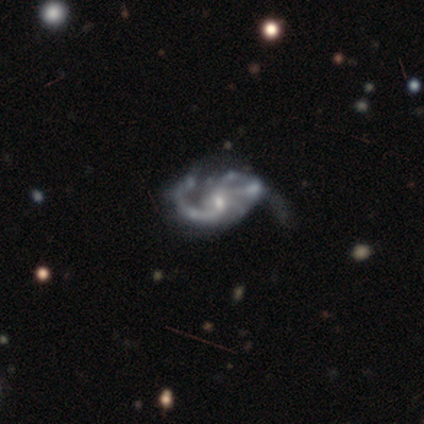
smooth-or-featured: featured or disk: 100% | smooth: 0% | star or artifact: 0%
  disk-edge-on: no: 100% | yes: 0%
    bar: no: 60% | weak: 40% | strong: 0%
    has-spiral-arms: yes: 100% | no: 0%
      spiral-winding: medium: 100% | tight: 0% | loose: 0%
      spiral-arm-count: 2: 80% | can't tell: 20% | 1: 0% | 3: 0% | 4: 0% | more than 4: 0%
    bulge-size: small: 60% | moderate: 40% | dominant: 0% | large: 0% | none: 0%
  merging: major disturbance: 60% | minor disturbance: 40% | none: 0% | merger: 0%